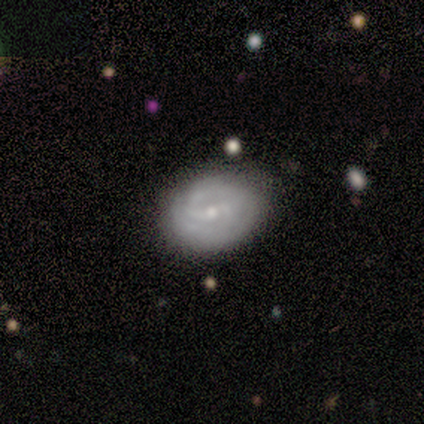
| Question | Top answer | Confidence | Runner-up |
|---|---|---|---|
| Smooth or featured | smooth | 50% | tied: featured or disk (50%) |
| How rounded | round | 50% | tied: in between (50%) |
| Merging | none | 100% | — |